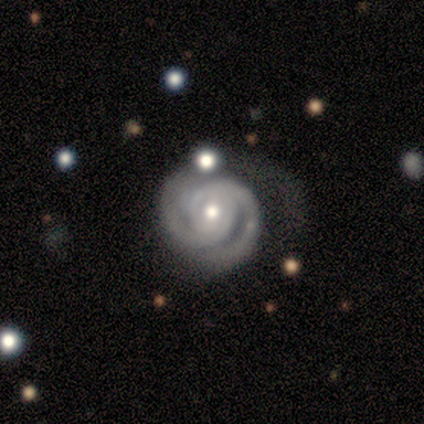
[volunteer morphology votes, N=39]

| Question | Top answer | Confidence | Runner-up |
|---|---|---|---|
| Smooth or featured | featured or disk | 92% | star or artifact (5%) |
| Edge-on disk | no | 94% | yes (6%) |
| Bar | no | 68% | weak (18%) |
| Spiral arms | yes | 100% | — |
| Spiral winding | tight | 76% | medium (24%) |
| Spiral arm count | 2 | 74% | can't tell (15%) |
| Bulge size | moderate | 74% | small (18%) |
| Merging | none | 59% | minor disturbance (19%) |